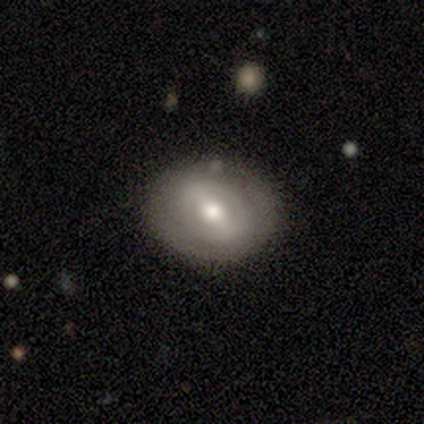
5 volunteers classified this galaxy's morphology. type=smooth (40%, tied with featured or disk); roundness=round (50%, tied with in between); merging=none (75%).